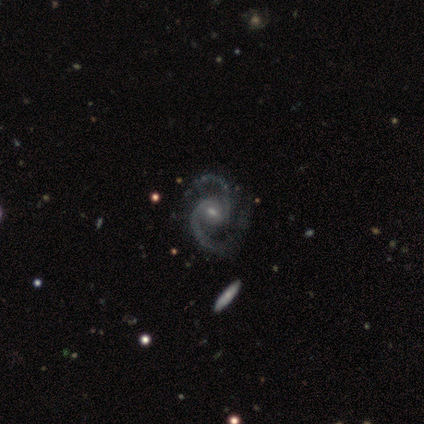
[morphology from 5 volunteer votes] Smooth or featured? 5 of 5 (100%) said featured or disk. Edge-on disk? 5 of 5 (100%) said no. Bar? 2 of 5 (40%, tied with no) said weak. Spiral arms? 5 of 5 (100%) said yes. Spiral winding? 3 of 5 (60%) said medium. Spiral arm count? 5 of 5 (100%) said 2. Bulge size? 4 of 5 (80%) said small. Merging? 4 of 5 (80%) said none.